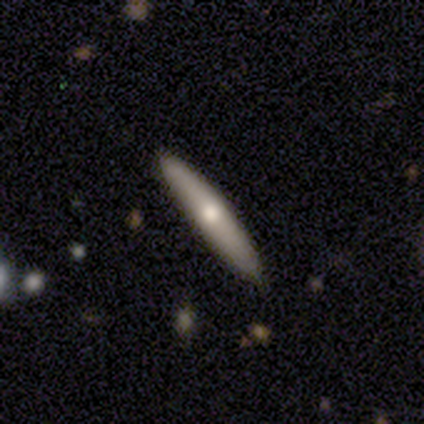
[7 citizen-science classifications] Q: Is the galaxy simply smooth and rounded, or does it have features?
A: featured or disk — 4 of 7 (57%).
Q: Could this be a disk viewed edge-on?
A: yes — 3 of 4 (75%).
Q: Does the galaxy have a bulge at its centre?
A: rounded — 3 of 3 (100%).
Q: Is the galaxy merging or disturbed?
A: none — 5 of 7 (71%).